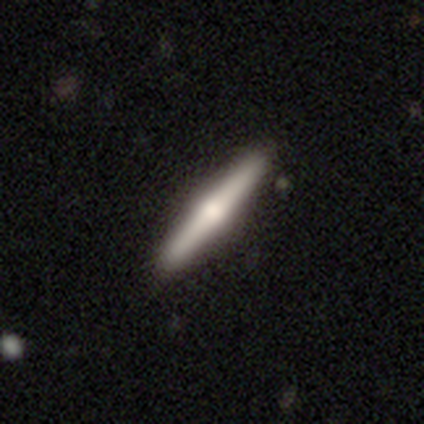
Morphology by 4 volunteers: smooth_or_featured: featured or disk (p=0.75) [alt: smooth p=0.25]
disk_edge_on: yes (p=1.00)
edge_on_bulge: rounded (p=1.00)
merging: none (p=1.00)